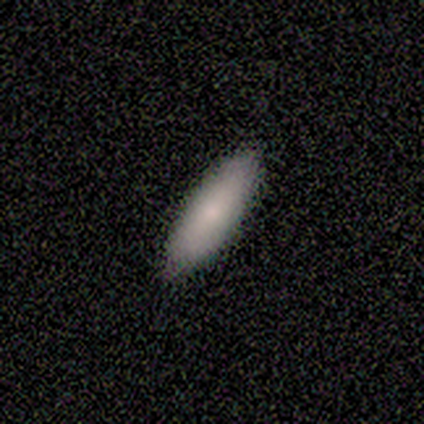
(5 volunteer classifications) A smooth galaxy with no disk features (80%) that is in between round and cigar-shaped (75%). Merging: none (75%).